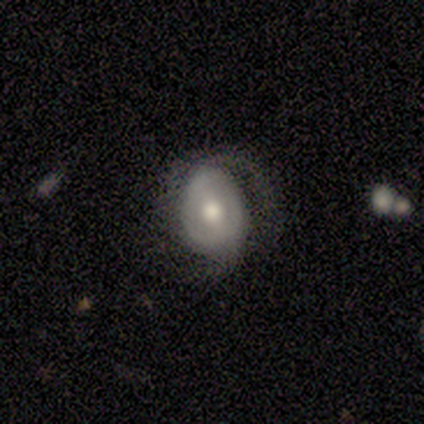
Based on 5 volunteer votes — This is likely a featured or disk galaxy (60%). It is clearly not viewed edge-on (100%). Bar: likely no (67%). Spiral arm pattern: likely yes (67%). Spiral arm count: possibly 1 (50%, tied with 2). Spiral winding: possibly medium (50%, tied with loose). Central bulge: clearly moderate (100%). Merging: clearly none (80%).